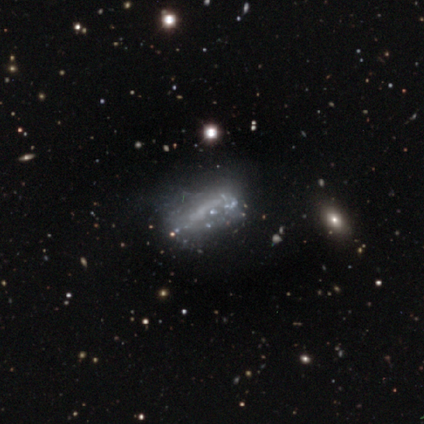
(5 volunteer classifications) Overall: featured or disk (60%; star or artifact 40%). Edge-on disk: no (67%; yes 33%). Bar: no (100%). Spiral arms: no (100%). Bulge size: none (100%). Merging: none (67%; major disturbance 33%).